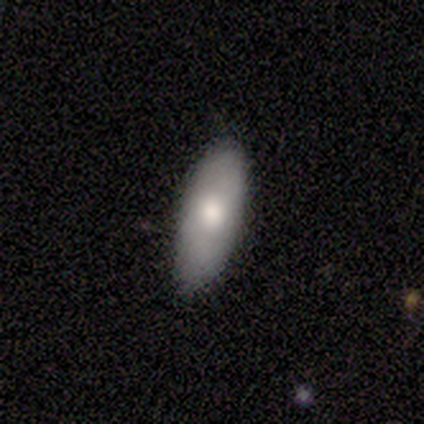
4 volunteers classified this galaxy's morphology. A smooth galaxy with no disk features (75%) that is in between round and cigar-shaped (67%). Merging: none (75%).